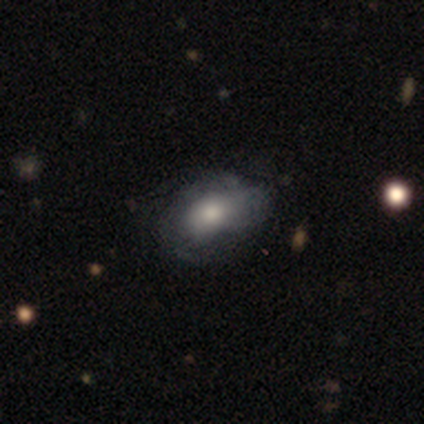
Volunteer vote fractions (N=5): smooth 60%, featured or disk 40%, star or artifact 0%. Down the decision tree: how rounded — in between (100%); merging — none (60%).